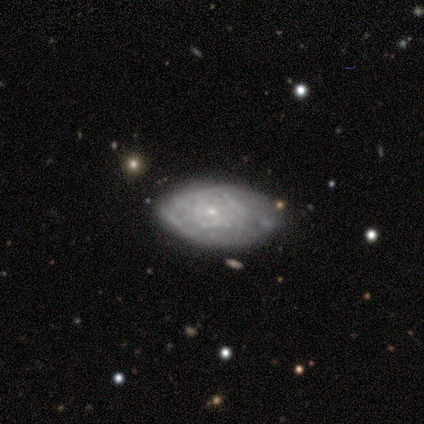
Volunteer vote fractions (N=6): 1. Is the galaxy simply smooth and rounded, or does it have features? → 67% featured or disk, 33% smooth, 0% star or artifact.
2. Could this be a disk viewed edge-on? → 100% no, 0% yes.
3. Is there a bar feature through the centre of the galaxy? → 100% no, 0% strong, 0% weak.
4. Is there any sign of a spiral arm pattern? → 75% no, 25% yes.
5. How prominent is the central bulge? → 100% small, 0% dominant, 0% large, 0% moderate, 0% none.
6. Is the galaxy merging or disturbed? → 50% minor disturbance, 33% none, 17% merger, 0% major disturbance.